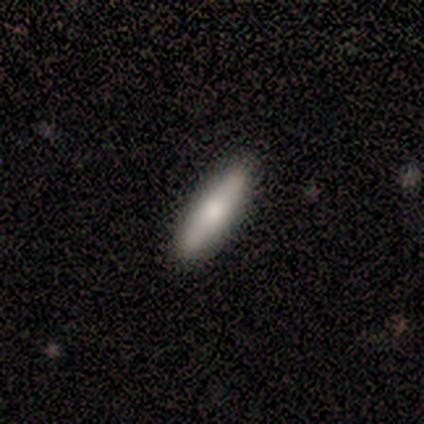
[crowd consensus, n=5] Smooth or featured? 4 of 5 (80%) said smooth. How rounded? 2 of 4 (50%, tied with cigar-shaped) said in between. Merging? 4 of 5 (80%) said none.